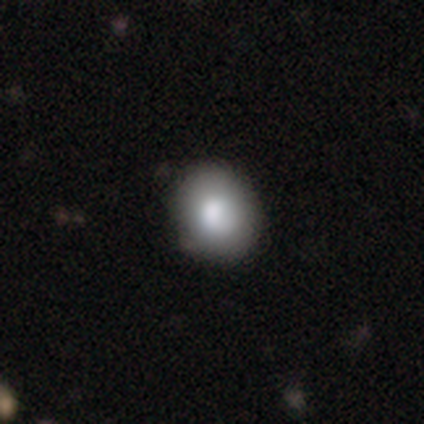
Smooth or featured? smooth (50%, tied with featured or disk)
How rounded? round (50%, tied with in between)
Merging? none (100%)